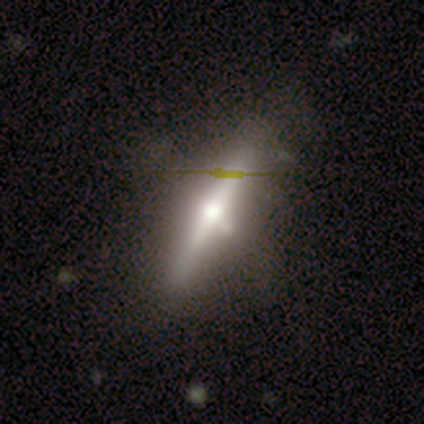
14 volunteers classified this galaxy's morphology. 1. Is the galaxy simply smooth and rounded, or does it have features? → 79% featured or disk, 21% smooth, 0% star or artifact.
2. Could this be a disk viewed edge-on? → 100% yes, 0% no.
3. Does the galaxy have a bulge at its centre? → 100% rounded, 0% boxy, 0% none.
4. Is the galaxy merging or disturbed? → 86% none, 7% minor disturbance, 7% merger, 0% major disturbance.